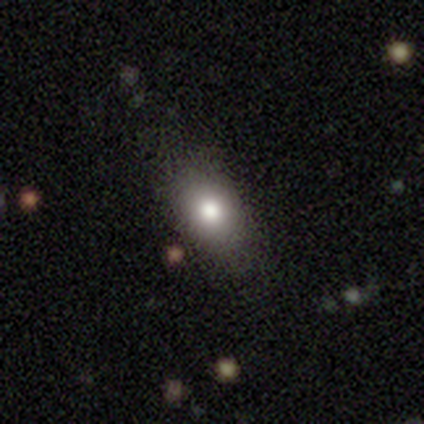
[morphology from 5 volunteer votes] A smooth galaxy with no disk features (100%) that is in between round and cigar-shaped (80%). Merging: none (100%).